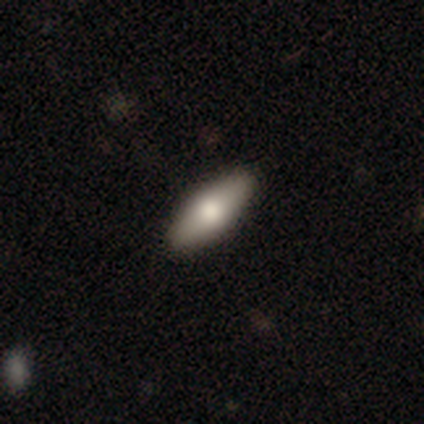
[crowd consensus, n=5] Overall: smooth (60%; featured or disk 40%). How rounded: in between (100%). Merging: none (100%).